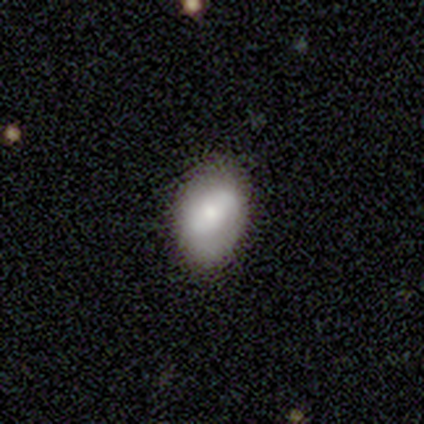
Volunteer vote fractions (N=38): Morphology: type=smooth (55%); roundness=in between (81%); merging=none (72%).